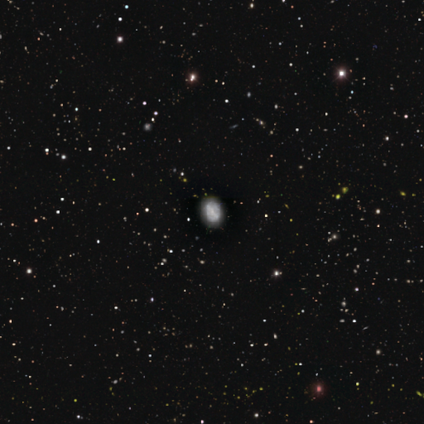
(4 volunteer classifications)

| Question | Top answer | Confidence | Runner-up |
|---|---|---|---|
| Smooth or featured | featured or disk | 100% | — |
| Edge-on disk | no | 100% | — |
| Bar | strong | 50% | weak (25%) |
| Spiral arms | no | 100% | — |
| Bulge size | moderate | 50% | small (25%) |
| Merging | minor disturbance | 50% | none (25%) |